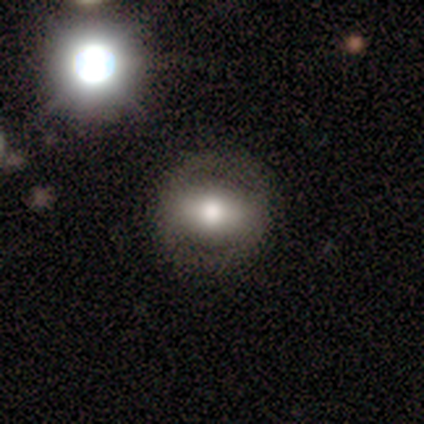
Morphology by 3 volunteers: Smooth or featured? 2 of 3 (67%) said smooth. How rounded? 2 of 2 (100%) said in between. Merging? 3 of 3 (100%) said none.